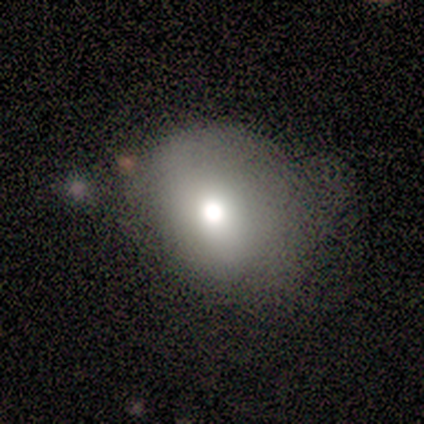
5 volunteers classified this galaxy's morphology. This is clearly a smooth galaxy (100%). How rounded: likely in between (60%). Merging: likely minor disturbance (60%).